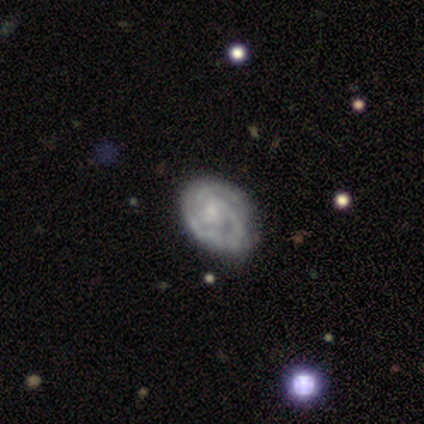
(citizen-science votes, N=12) Smooth or featured?
  - featured or disk: 67% *
  - smooth: 33%
  - star or artifact: 0%
Edge-on disk?
  - no: 100% *
  - yes: 0%
Bar?
  - no: 62% *
  - weak: 25%
  - strong: 12%
Spiral arms?
  - yes: 88% *
  - no: 12%
Spiral winding?
  - tight: 57% *
  - medium: 29%
  - loose: 14%
Spiral arm count?
  - 2: 71% *
  - 1: 14%
  - can't tell: 14%
  - 3: 0%
  - 4: 0%
  - more than 4: 0%
Bulge size?
  - small: 75% *
  - moderate: 12%
  - none: 12%
  - dominant: 0%
  - large: 0%
Merging?
  - none: 50% * (tied)
  - minor disturbance: 50% * (tied)
  - major disturbance: 0%
  - merger: 0%